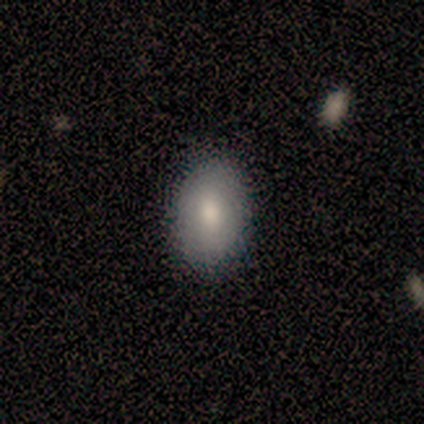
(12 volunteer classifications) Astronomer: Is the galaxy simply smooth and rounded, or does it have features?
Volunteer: smooth — 83%.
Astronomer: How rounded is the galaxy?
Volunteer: in between — 90%.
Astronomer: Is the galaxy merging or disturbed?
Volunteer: none — 83%.